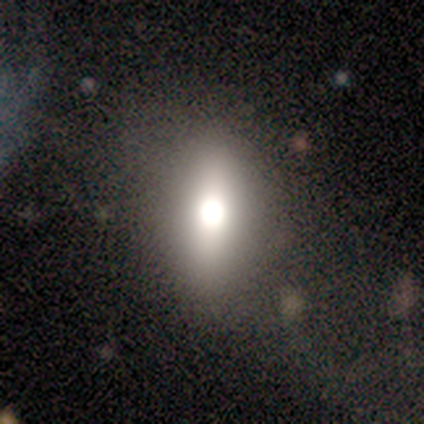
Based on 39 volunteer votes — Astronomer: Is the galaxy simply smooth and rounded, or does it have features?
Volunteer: smooth — 44% (runner-up: featured or disk, 31%).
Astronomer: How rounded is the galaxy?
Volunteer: in between — 82%.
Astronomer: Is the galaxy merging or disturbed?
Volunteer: none — 76%.